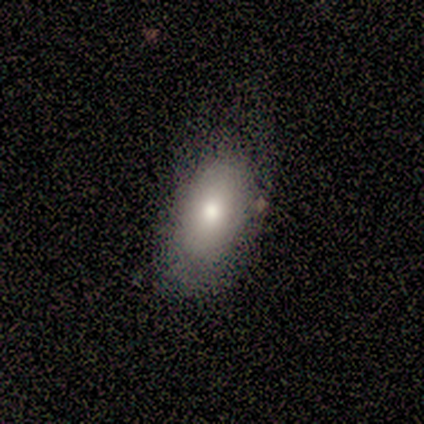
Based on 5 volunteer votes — A smooth galaxy with no disk features (80%) that is in between round and cigar-shaped (100%). Merging: none (80%).